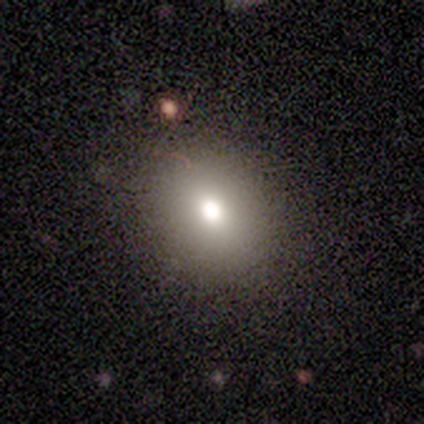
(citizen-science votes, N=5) Q: Smooth or featured?
A: smooth (60%); runner-up: featured or disk (40%)
Q: How rounded?
A: round (67%); runner-up: in between (33%)
Q: Merging?
A: none (60%); runner-up: minor disturbance (40%)